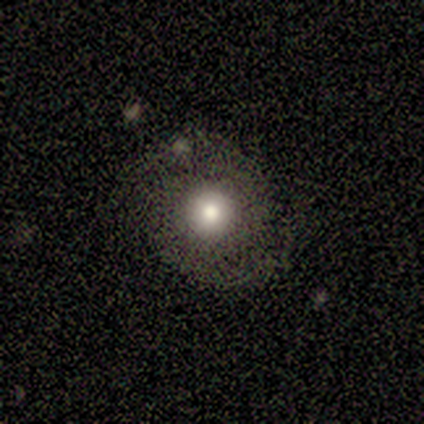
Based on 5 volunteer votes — Overall: smooth (40%, tied with featured or disk). How rounded: round (100%). Merging: none (75%).